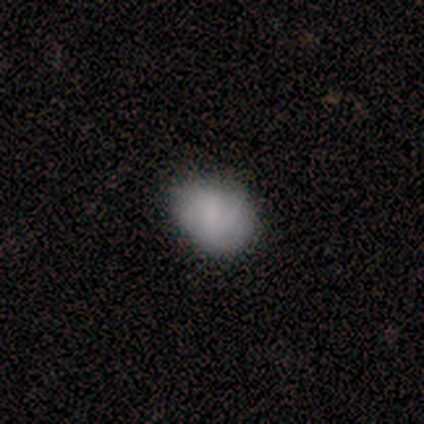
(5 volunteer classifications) Overall: smooth (100%). How rounded: in between (80%). Merging: none (80%).